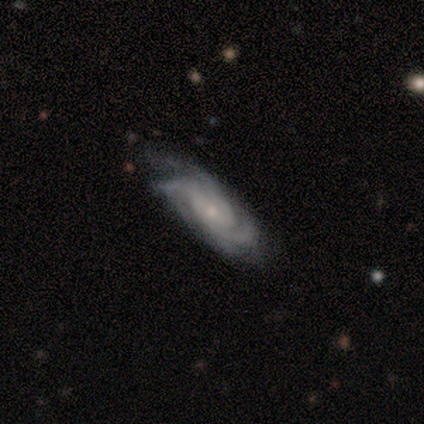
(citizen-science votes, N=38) A featured or disk galaxy (92%) with no bar (69%), 3 (56%) tight (53%) spiral arms (100%) and a small central bulge (75%). Merging: none (62%).